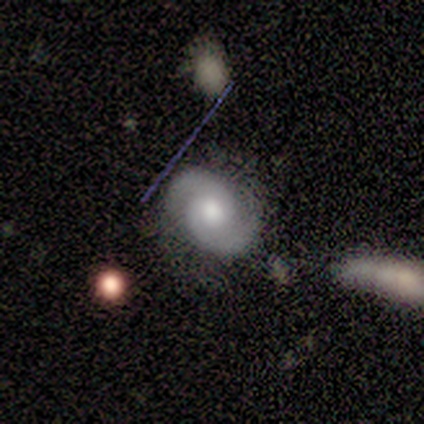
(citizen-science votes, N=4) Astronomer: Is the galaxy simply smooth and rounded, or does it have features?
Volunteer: featured or disk — 100%.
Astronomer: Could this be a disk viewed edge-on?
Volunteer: no — 100%.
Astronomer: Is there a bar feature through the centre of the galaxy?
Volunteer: no — 50%.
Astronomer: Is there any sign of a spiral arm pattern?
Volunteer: yes — 100%.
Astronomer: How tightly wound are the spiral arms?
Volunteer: tight — 50%.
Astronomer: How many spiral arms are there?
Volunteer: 2 — 100%.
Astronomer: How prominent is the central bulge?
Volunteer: moderate — 50%.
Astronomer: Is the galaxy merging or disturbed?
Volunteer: minor disturbance — 75%.